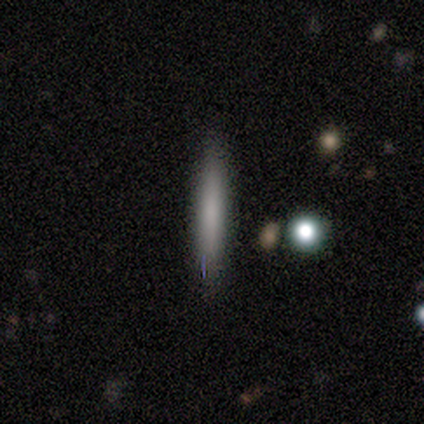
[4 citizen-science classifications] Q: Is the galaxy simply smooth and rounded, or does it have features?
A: smooth — 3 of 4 (75%).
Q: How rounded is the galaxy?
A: cigar-shaped — 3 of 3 (100%).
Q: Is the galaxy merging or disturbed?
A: none — 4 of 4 (100%).